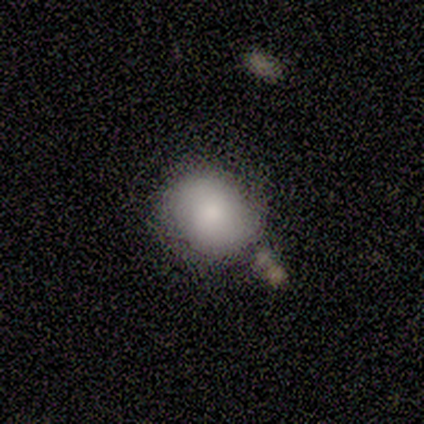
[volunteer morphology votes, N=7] This is clearly a smooth galaxy (100%). How rounded: likely round (71%). Merging: likely none (71%).